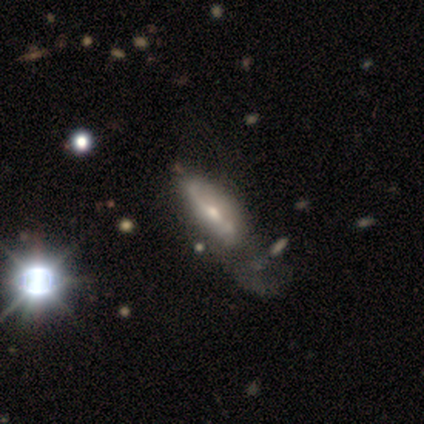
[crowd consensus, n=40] Smooth or featured: featured or disk — 60% (smooth — 32%)
Edge-on disk: no — 71% (yes — 29%)
Bar: strong — 35% (tied with weak — 35%)
Spiral arms: yes — 82% (no — 18%)
Spiral winding: loose — 50% (medium — 43%)
Spiral arm count: 2 — 71% (can't tell — 29%)
Bulge size: moderate — 53% (small — 47%)
Merging: major disturbance — 41% (minor disturbance — 16%)